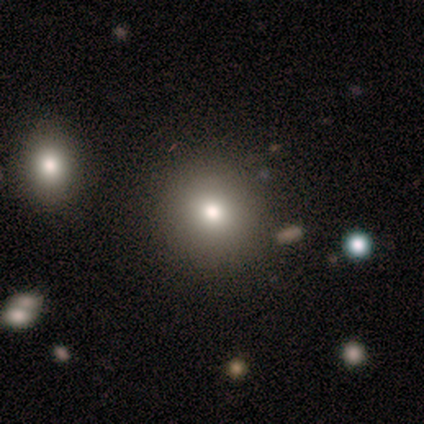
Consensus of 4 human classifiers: A smooth galaxy with no disk features (50%) that is round (100%).

Vote fractions:
- Smooth or featured? smooth: 50% / featured or disk: 25% / star or artifact: 25%
- How rounded? round: 100% / in between: 0% / cigar-shaped: 0%
- Merging? none: 100% / minor disturbance: 0% / major disturbance: 0% / merger: 0%